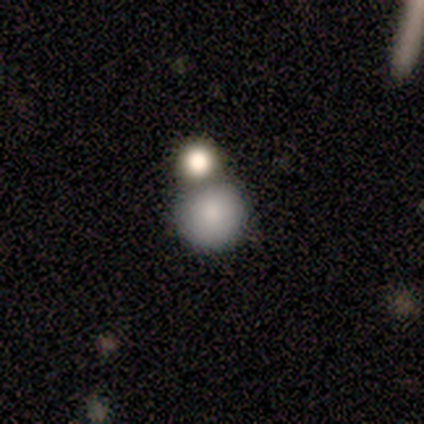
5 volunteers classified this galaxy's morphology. This is clearly a smooth galaxy (100%). How rounded: clearly round (80%). Merging: clearly none (80%).